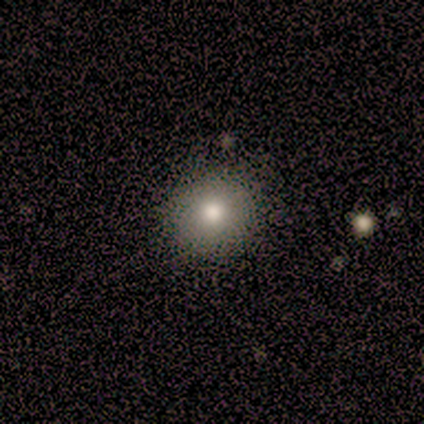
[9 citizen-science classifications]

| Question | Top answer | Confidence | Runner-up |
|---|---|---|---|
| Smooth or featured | smooth | 78% | star or artifact (22%) |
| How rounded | round | 100% | — |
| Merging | none | 86% | minor disturbance (14%) |